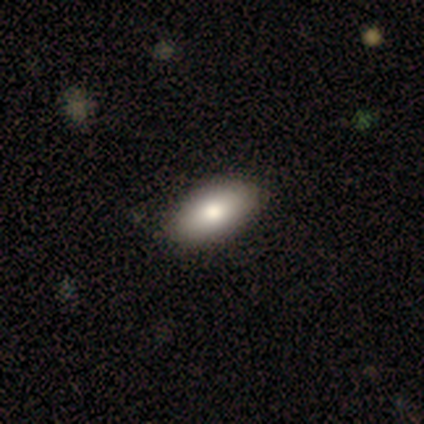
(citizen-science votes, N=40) This appears to be a smooth galaxy with no disk features (90%) that is in between round and cigar-shaped (89%). Merging: none (62%).